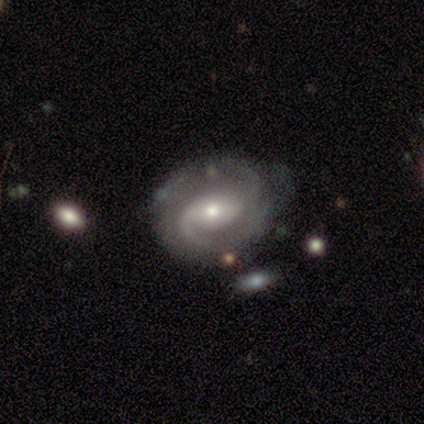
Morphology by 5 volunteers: Smooth or featured?
  - featured or disk: 80% *
  - smooth: 20%
  - star or artifact: 0%
Edge-on disk?
  - no: 100% *
  - yes: 0%
Bar?
  - weak: 50% *
  - strong: 25%
  - no: 25%
Spiral arms?
  - yes: 100% *
  - no: 0%
Spiral winding?
  - medium: 75% *
  - tight: 25%
  - loose: 0%
Spiral arm count?
  - 2: 100% *
  - 1: 0%
  - 3: 0%
  - 4: 0%
  - more than 4: 0%
  - can't tell: 0%
Bulge size?
  - moderate: 50% * (tied)
  - small: 50% * (tied)
  - dominant: 0%
  - large: 0%
  - none: 0%
Merging?
  - none: 40% * (tied)
  - minor disturbance: 40% * (tied)
  - major disturbance: 20%
  - merger: 0%